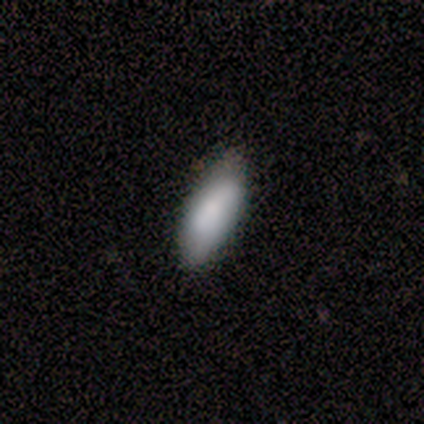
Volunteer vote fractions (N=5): A smooth galaxy with no disk features (80%) that is in between round and cigar-shaped (75%).

Vote fractions:
- Smooth or featured? smooth: 80% / featured or disk: 20% / star or artifact: 0%
- How rounded? in between: 75% / cigar-shaped: 25% / round: 0%
- Merging? none: 100% / minor disturbance: 0% / major disturbance: 0% / merger: 0%